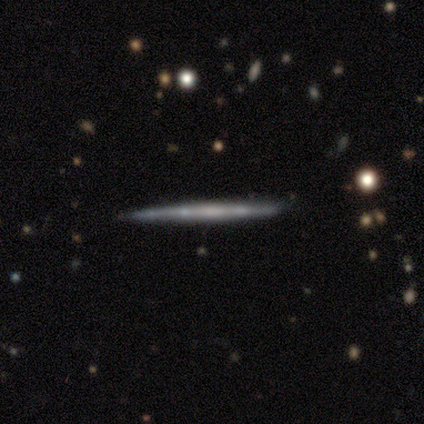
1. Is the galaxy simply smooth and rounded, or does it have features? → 100% featured or disk, 0% smooth, 0% star or artifact.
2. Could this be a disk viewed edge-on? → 100% yes, 0% no.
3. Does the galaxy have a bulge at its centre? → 50% none (tied), 50% rounded (tied), 0% boxy.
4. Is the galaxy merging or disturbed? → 100% none, 0% minor disturbance, 0% major disturbance, 0% merger.